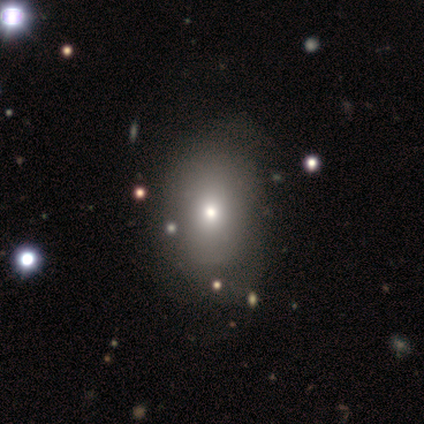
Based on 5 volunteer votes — Smooth or featured? smooth (100%)
How rounded? in between (80%)
Merging? minor disturbance (40%)